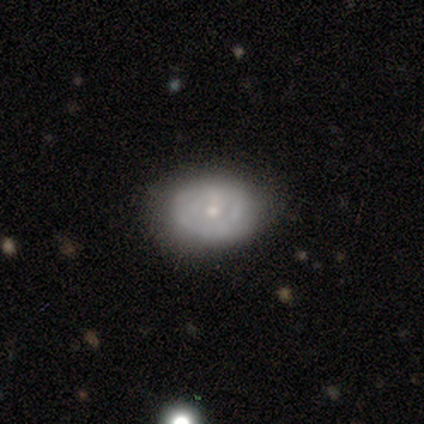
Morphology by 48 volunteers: smooth 50%, featured or disk 40%, star or artifact 10%. Down the decision tree: how rounded — in between (79%); merging — none (84%).